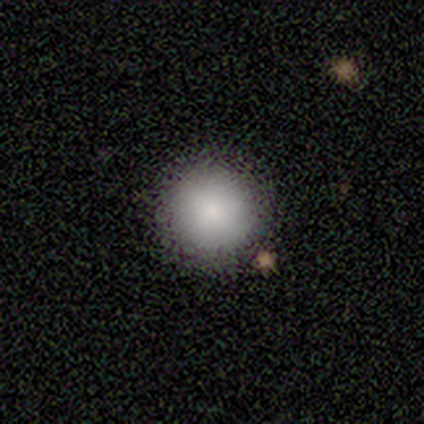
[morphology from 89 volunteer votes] Q: Smooth or featured?
A: smooth (97%); runner-up: featured or disk (2%)
Q: How rounded?
A: round (98%); runner-up: in between (2%)
Q: Merging?
A: none (88%); runner-up: merger (7%)